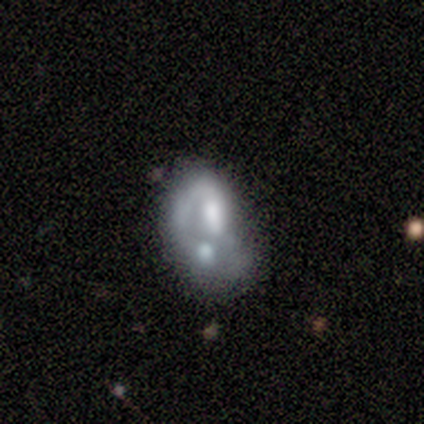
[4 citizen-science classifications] Volunteers were most divided on "bulge size" (3-way tie): moderate: 33%, small: 33%, none: 33%, dominant: 0%, large: 0%; "merging" (3-way tie): none: 33%, minor disturbance: 33%, merger: 33%, major disturbance: 0%. More confident: edge-on disk — no (100%); bar — no (100%); spiral arms — no (100%); smooth or featured — featured or disk (75%).